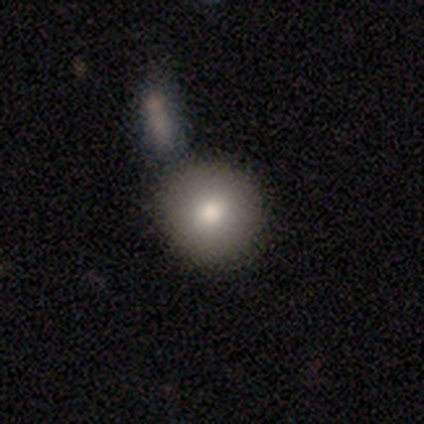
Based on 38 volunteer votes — A smooth galaxy with no disk features (74%) that is round (96%). Merging: none (71%).